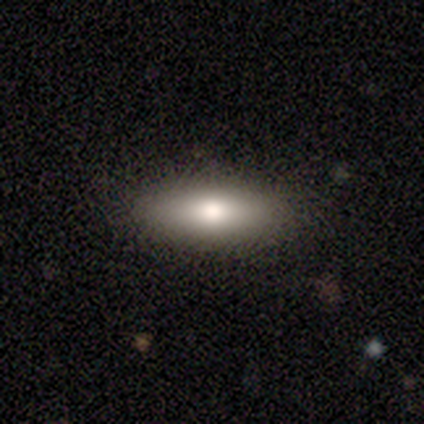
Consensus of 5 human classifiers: Q: Smooth or featured?
A: smooth (80%); runner-up: star or artifact (20%)
Q: How rounded?
A: in between (75%); runner-up: cigar-shaped (25%)
Q: Merging?
A: none (75%); runner-up: major disturbance (25%)